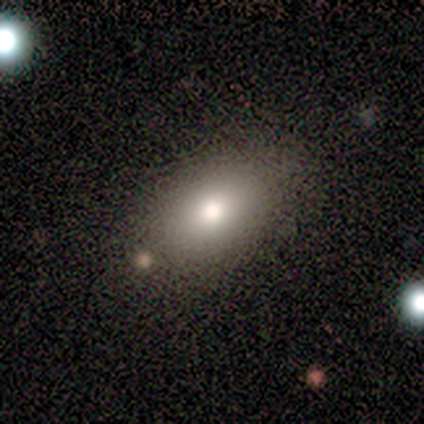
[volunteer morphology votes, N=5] smooth_or_featured: smooth (p=0.80) [alt: star or artifact p=0.20]
how_rounded: in between (p=0.75) [alt: round p=0.25]
merging: none (p=0.75) [alt: minor disturbance p=0.25]